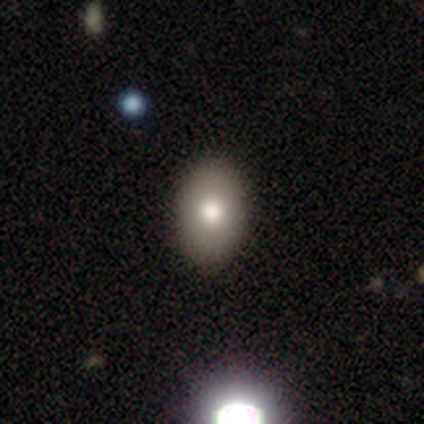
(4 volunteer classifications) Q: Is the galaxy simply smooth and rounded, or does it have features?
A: smooth — 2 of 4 (50%, tied with featured or disk).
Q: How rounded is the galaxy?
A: round — 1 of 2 (50%, tied with in between).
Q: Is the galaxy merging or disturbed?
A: none — 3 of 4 (75%).